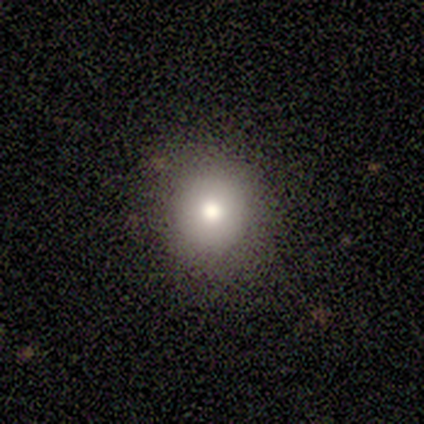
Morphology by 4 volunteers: This is clearly a smooth galaxy (100%). How rounded: clearly round (100%). Merging: clearly none (100%).